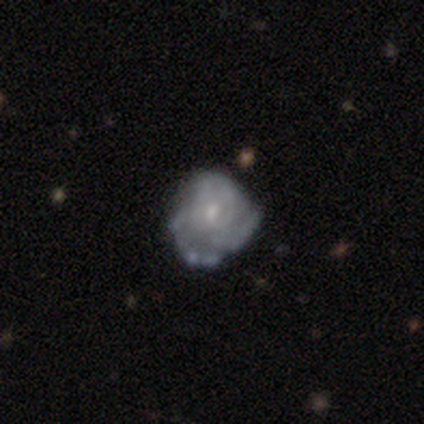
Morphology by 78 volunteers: Smooth or featured? featured or disk (87%)
Edge-on disk? no (97%)
Bar? no (71%)
Spiral arms? yes (77%)
Spiral winding? tight (59%)
Spiral arm count? can't tell (51%)
Bulge size? small (68%)
Merging? none (43%)